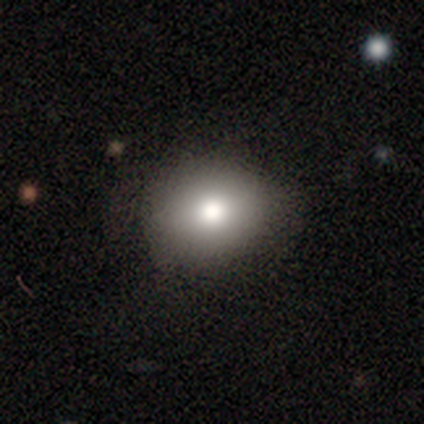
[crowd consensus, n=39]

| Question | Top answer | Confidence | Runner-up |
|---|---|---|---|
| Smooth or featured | smooth | 74% | star or artifact (18%) |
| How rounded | round | 59% | in between (38%) |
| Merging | none | 91% | minor disturbance (6%) |